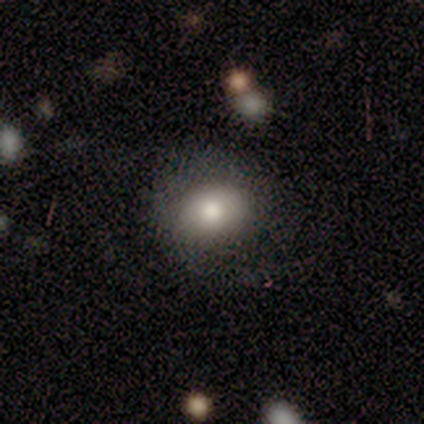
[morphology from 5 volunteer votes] smooth-or-featured: smooth: 80% | star or artifact: 20% | featured or disk: 0%
  how-rounded: round: 50% (tied) | in between: 50% (tied) | cigar-shaped: 0%
  merging: none: 75% | minor disturbance: 25% | major disturbance: 0% | merger: 0%